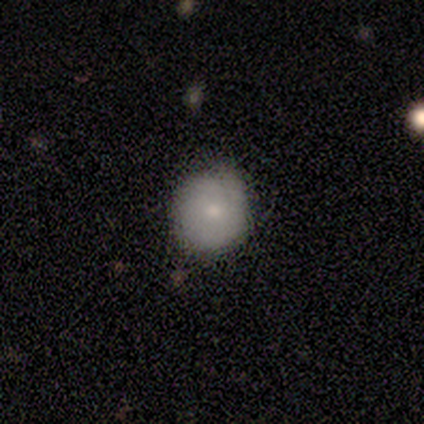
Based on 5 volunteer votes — Morphology: type=smooth (60%); roundness=round (67%); merging=none (60%).